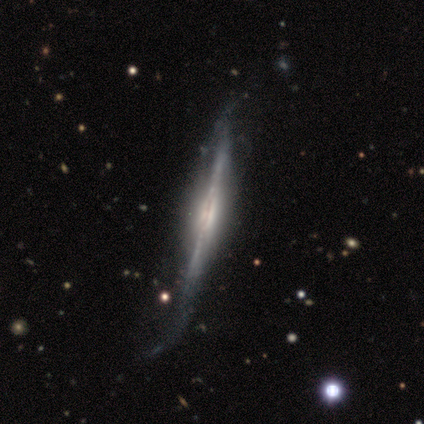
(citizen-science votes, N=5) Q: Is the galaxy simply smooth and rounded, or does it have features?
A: featured or disk — 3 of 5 (60%).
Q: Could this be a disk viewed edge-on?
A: yes — 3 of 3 (100%).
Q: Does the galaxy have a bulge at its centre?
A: rounded — 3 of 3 (100%).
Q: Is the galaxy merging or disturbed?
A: minor disturbance — 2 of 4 (50%).